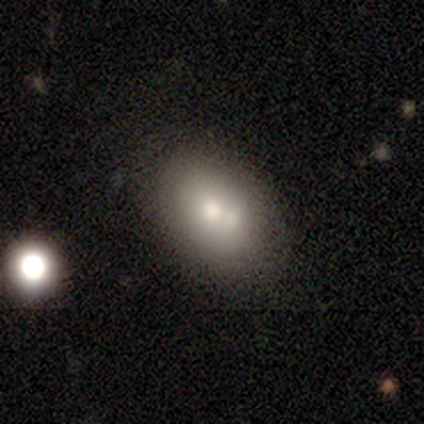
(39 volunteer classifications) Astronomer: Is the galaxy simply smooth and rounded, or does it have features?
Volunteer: smooth — 74%.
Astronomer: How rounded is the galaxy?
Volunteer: in between — 97%.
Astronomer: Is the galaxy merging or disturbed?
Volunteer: none — 50% (runner-up: merger, 42%).